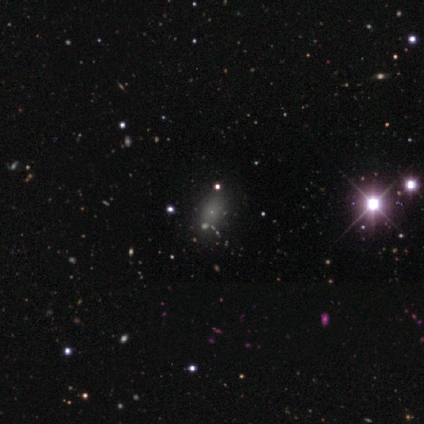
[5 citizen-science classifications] smooth_or_featured: star or artifact (p=0.60) [alt: smooth p=0.40]